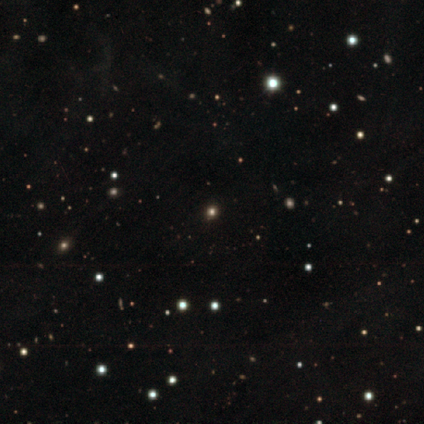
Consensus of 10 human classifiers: Overall: smooth (50%, tied with star or artifact). How rounded: round (80%). Merging: none (100%).